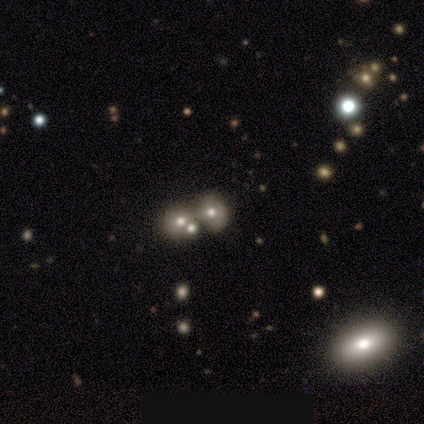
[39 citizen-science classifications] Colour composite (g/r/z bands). It shows a smooth galaxy with no disk features (54%) that is round (52%). Merging: merger (79%).